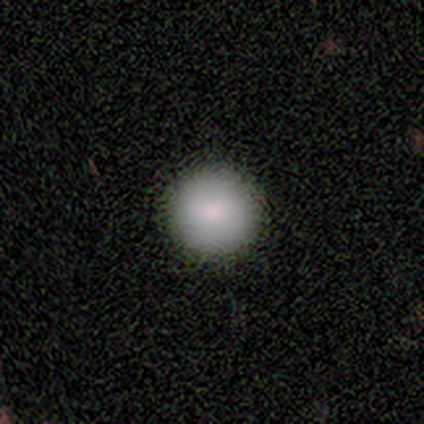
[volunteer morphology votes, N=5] A smooth galaxy with no disk features (100%) that is round (100%). Merging: none (100%).